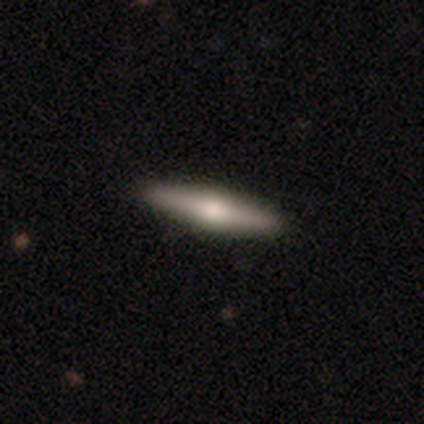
Smooth or featured: featured or disk — 49% (smooth — 42%)
Edge-on disk: yes — 93% (no — 7%)
Edge-on bulge: rounded — 85% (boxy — 7%)
Merging: none — 84% (minor disturbance — 16%)